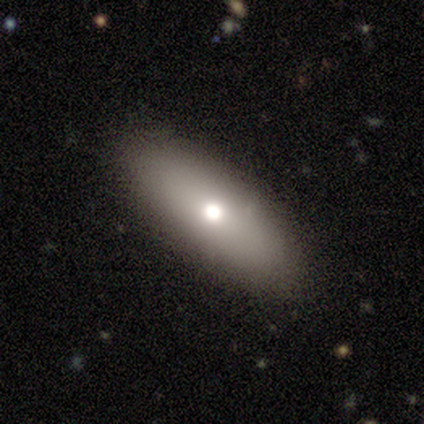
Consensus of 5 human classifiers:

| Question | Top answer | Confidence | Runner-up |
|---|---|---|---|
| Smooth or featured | smooth | 80% | featured or disk (20%) |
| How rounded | in between | 50% | tied: cigar-shaped (50%) |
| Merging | none | 100% | — |